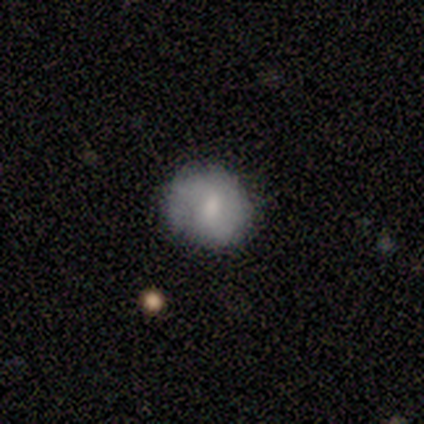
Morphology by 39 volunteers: Q: Smooth or featured?
A: smooth (62%); runner-up: featured or disk (28%)
Q: How rounded?
A: round (92%); runner-up: in between (8%)
Q: Merging?
A: none (71%); runner-up: minor disturbance (20%)